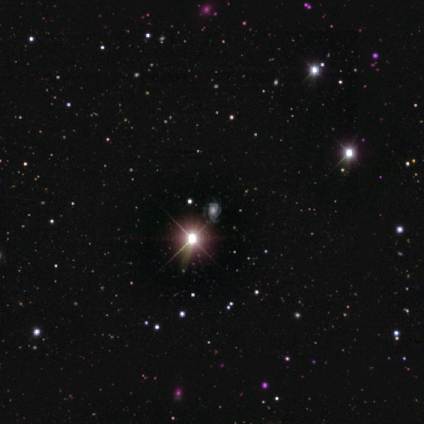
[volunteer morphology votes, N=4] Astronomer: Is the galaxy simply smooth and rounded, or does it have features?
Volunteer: featured or disk — 75%.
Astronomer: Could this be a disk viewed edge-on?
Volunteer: no — 100%.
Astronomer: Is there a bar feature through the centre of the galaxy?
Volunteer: no — 100%.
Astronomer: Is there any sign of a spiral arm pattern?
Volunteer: yes — 100%.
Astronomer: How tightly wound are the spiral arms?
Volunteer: tight — 67%.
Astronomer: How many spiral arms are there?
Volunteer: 3 — 67%.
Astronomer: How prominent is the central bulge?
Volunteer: moderate — 100%.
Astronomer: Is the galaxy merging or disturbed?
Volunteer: none — 100%.